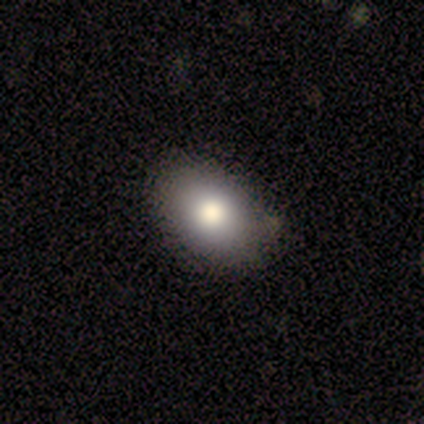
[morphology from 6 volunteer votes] Smooth or featured? 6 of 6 (100%) said smooth. How rounded? 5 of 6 (83%) said in between. Merging? 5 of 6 (83%) said none.